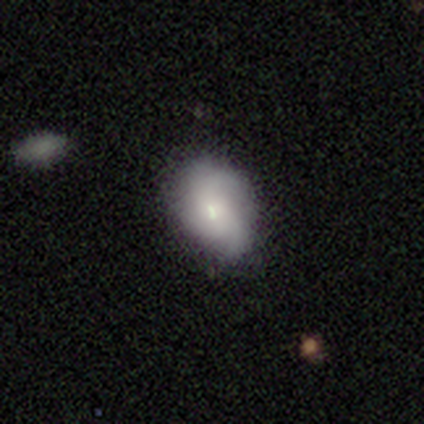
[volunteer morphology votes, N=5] Smooth or featured: smooth — 60% (featured or disk — 40%)
How rounded: in between — 67% (round — 33%)
Merging: none — 100%